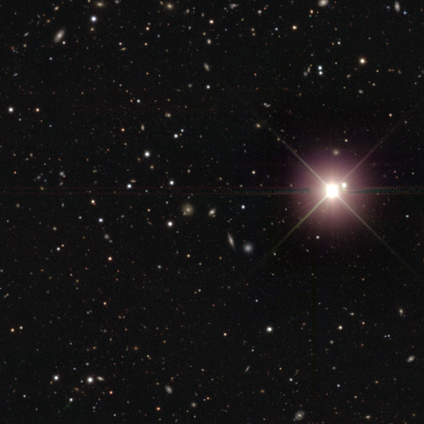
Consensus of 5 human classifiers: Consensus on every question: smooth or featured — star or artifact (100%).